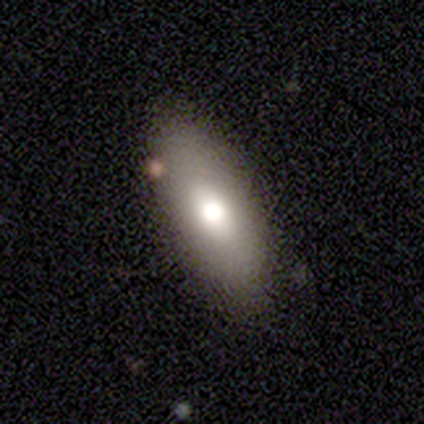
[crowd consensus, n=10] smooth 80%, featured or disk 20%, star or artifact 0%. Down the decision tree: how rounded — in between (88%); merging — none (80%).